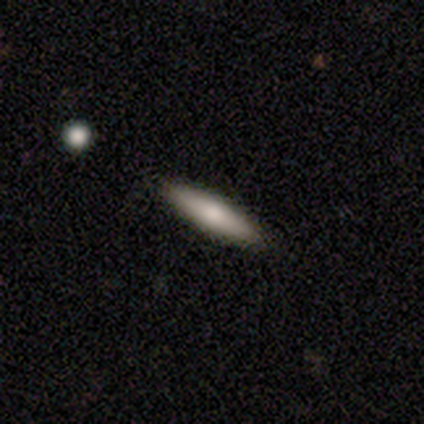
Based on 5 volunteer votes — Smooth or featured? 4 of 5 (80%) said smooth. How rounded? 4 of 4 (100%) said cigar-shaped. Merging? 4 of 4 (100%) said none.